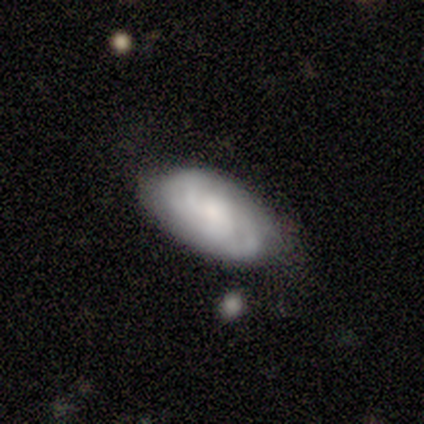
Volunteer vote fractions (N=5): Volunteers were most divided on "bulge size" (3-way tie): large: 33%, small: 33%, none: 33%, dominant: 0%, moderate: 0%. More confident: edge-on disk — no (100%); spiral arms — yes (100%); merging — none (100%); bar — no (67%); spiral winding — tight (67%); spiral arm count — can't tell (67%); smooth or featured — featured or disk (60%).